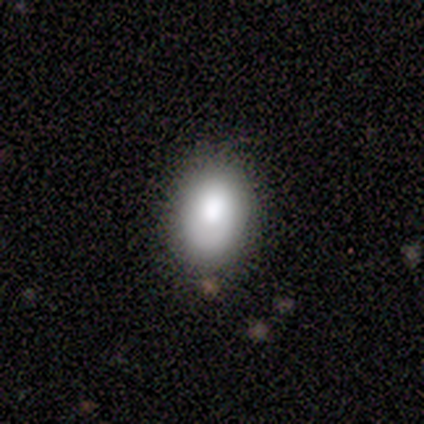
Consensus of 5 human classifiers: A smooth galaxy with no disk features (80%) that is in between round and cigar-shaped (100%). Merging: minor disturbance (60%).